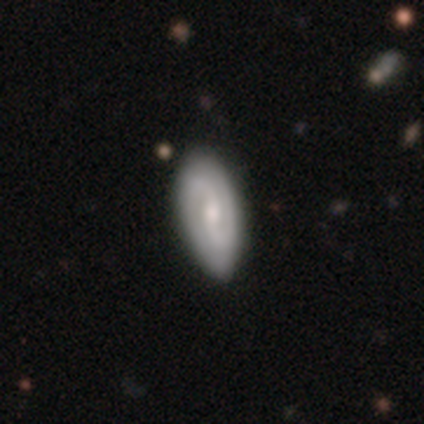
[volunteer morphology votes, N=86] Smooth or featured?
  - featured or disk: 66% *
  - smooth: 29%
  - star or artifact: 5%
Edge-on disk?
  - no: 91% *
  - yes: 9%
Bar?
  - weak: 50% *
  - no: 44%
  - strong: 6%
Spiral arms?
  - yes: 92% *
  - no: 8%
Spiral winding?
  - medium: 48% *
  - tight: 29%
  - loose: 23%
Spiral arm count?
  - 2: 98% *
  - can't tell: 2%
  - 1: 0%
  - 3: 0%
  - 4: 0%
  - more than 4: 0%
Bulge size?
  - moderate: 58% *
  - small: 40%
  - none: 2%
  - dominant: 0%
  - large: 0%
Merging?
  - none: 78% *
  - minor disturbance: 18%
  - major disturbance: 4%
  - merger: 0%